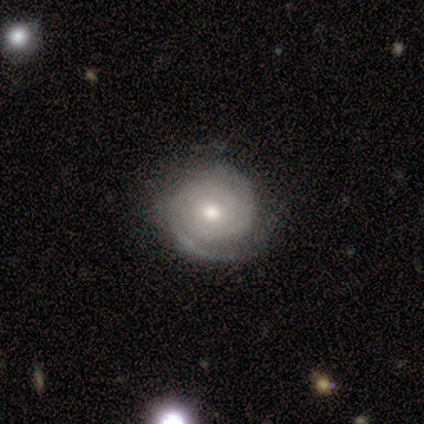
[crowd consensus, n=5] Morphology: type=featured or disk (40%, tied with star or artifact); edge-on=no (100%); bar=no (100%); spiral arms=yes (100%); winding=tight (100%); arm count=2 (100%); bulge=large (50%, tied with moderate); merging=none (67%).